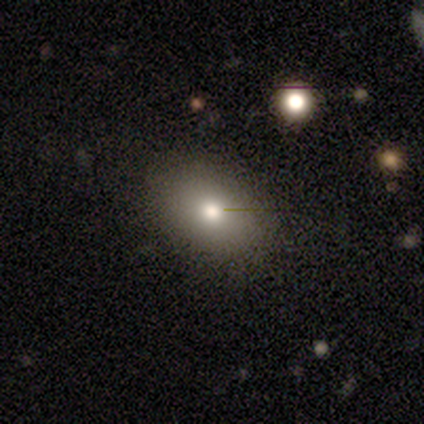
This is possibly a smooth galaxy (50%, tied with featured or disk). How rounded: clearly in between (100%). Merging: clearly none (100%).